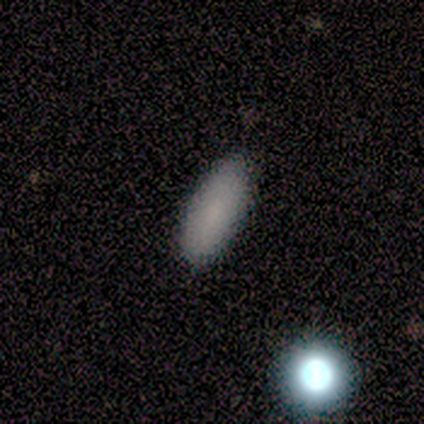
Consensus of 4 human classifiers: Smooth or featured? 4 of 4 (100%) said smooth. How rounded? 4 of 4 (100%) said in between. Merging? 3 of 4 (75%) said none.